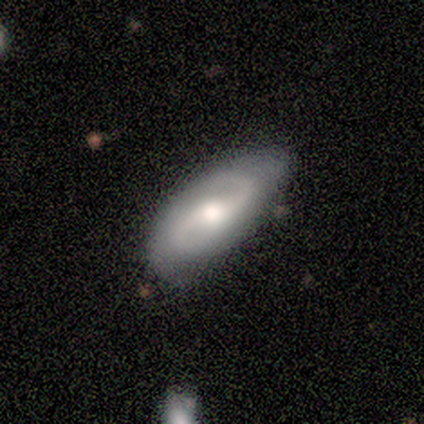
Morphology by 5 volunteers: featured or disk 60%, smooth 40%, star or artifact 0%. Down the decision tree: edge-on disk — no (100%); bar — no (67%); spiral arms — yes (100%); spiral arm count — 2 (100%); spiral winding — loose (67%); bulge size — moderate (100%); merging — none (100%).